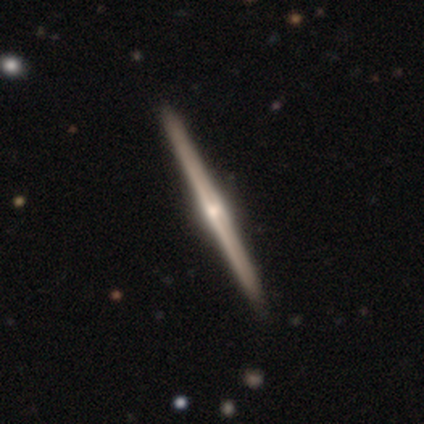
Morphology: type=featured or disk (90%); edge-on=yes (97%); edge-on bulge=rounded (82%); merging=none (70%).